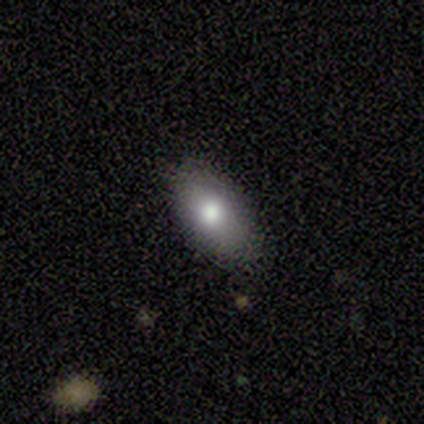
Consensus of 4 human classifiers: Smooth or featured?
  - smooth: 100% *
  - featured or disk: 0%
  - star or artifact: 0%
How rounded?
  - in between: 75% *
  - round: 25%
  - cigar-shaped: 0%
Merging?
  - none: 75% *
  - minor disturbance: 25%
  - major disturbance: 0%
  - merger: 0%